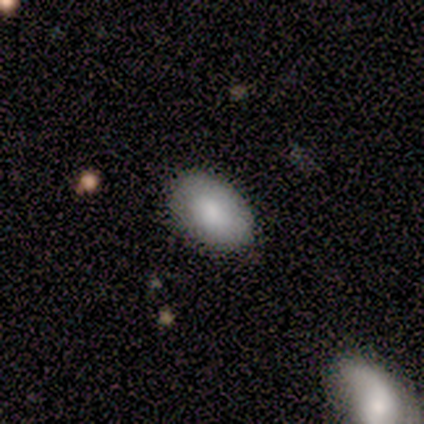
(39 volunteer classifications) smooth 79%, featured or disk 18%, star or artifact 3%. Down the decision tree: how rounded — in between (94%); merging — none (95%).